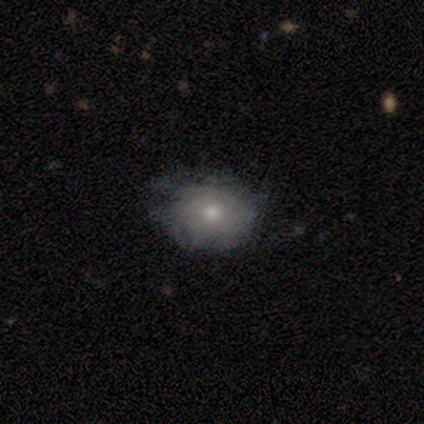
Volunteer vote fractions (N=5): Smooth or featured?
  - featured or disk: 60% *
  - smooth: 40%
  - star or artifact: 0%
Edge-on disk?
  - no: 100% *
  - yes: 0%
Bar?
  - no: 67% *
  - weak: 33%
  - strong: 0%
Spiral arms?
  - no: 67% *
  - yes: 33%
Bulge size?
  - moderate: 100% *
  - dominant: 0%
  - large: 0%
  - small: 0%
  - none: 0%
Merging?
  - minor disturbance: 60% *
  - none: 40%
  - major disturbance: 0%
  - merger: 0%